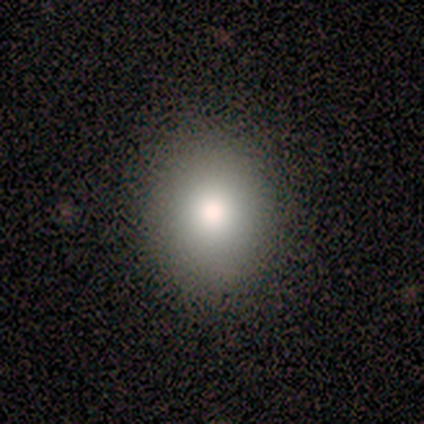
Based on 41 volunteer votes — Smooth or featured? smooth (85%)
How rounded? round (74%)
Merging? none (97%)